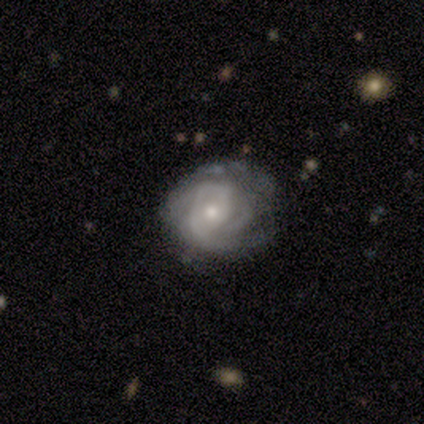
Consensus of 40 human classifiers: This is clearly a featured or disk galaxy (80%). It is clearly not viewed edge-on (100%). Bar: clearly no (81%). Spiral arm pattern: clearly yes (84%). Spiral arm count: marginally can't tell (44%). Spiral winding: possibly tight (52%). Central bulge: possibly moderate (47%, tied with small). Merging: likely none (64%).